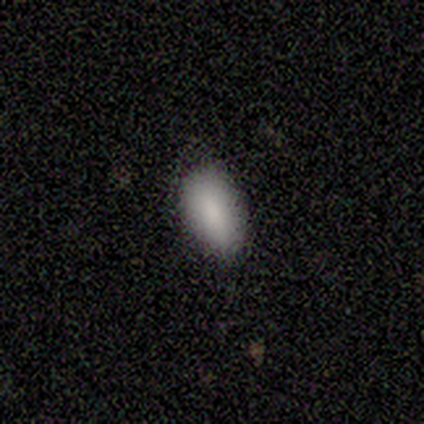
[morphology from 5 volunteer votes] Q: Smooth or featured?
A: smooth (60%); runner-up: star or artifact (40%)
Q: How rounded?
A: in between (100%)
Q: Merging?
A: none (100%)